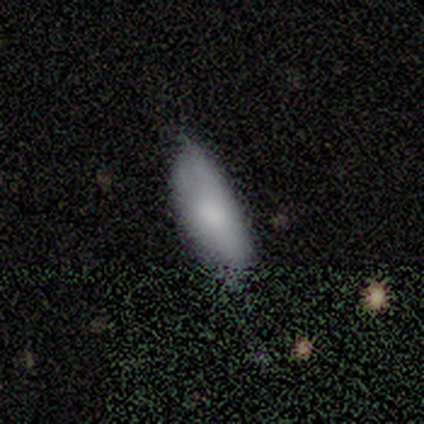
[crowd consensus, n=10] Smooth or featured: smooth — 100%
How rounded: in between — 80% (cigar-shaped — 20%)
Merging: none — 70% (minor disturbance — 30%)